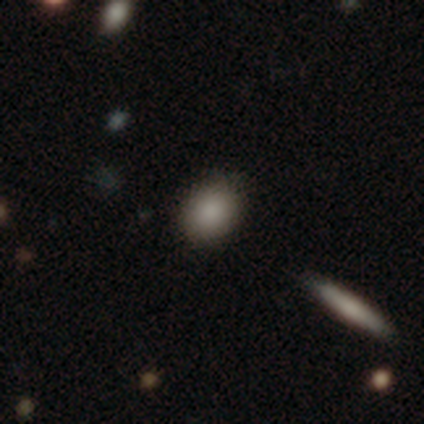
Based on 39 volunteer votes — Smooth or featured: smooth — 92% (star or artifact — 8%)
How rounded: in between — 58% (round — 42%)
Merging: none — 58% (merger — 8%)